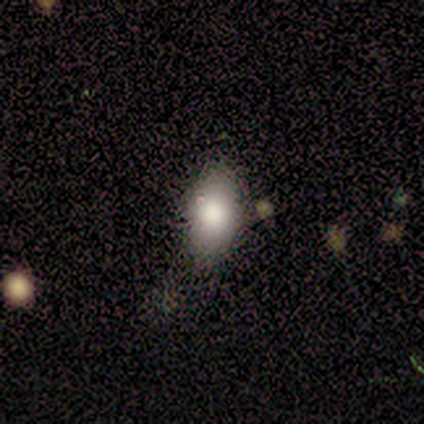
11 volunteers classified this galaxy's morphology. A smooth galaxy with no disk features (91%) that is in between round and cigar-shaped (100%).

Vote fractions:
- Smooth or featured? smooth: 91% / star or artifact: 9% / featured or disk: 0%
- How rounded? in between: 100% / round: 0% / cigar-shaped: 0%
- Merging? none: 80% / minor disturbance: 10% / major disturbance: 10% / merger: 0%